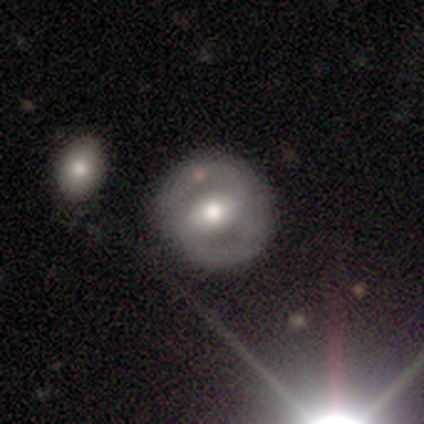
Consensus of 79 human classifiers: featured or disk 76%, smooth 18%, star or artifact 6%. Down the decision tree: edge-on disk — no (100%); bar — weak (47%); spiral arms — yes (62%); spiral arm count — 2 (95%); spiral winding — medium (49%); bulge size — moderate (67%); merging — none (82%).